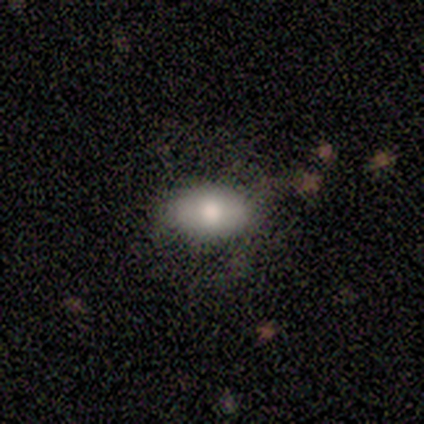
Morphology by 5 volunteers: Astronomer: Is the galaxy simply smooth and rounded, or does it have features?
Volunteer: smooth — 100%.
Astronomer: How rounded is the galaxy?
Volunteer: in between — 100%.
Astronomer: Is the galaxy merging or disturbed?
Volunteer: none — 60% (runner-up: major disturbance, 40%).